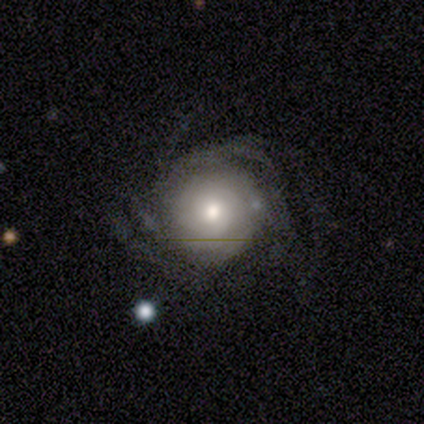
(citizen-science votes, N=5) Overall: featured or disk (60%; smooth 40%). Edge-on disk: no (100%). Bar: no (100%). Spiral arms: yes (100%). Spiral arm count: can't tell (67%; 3 33%). Spiral winding: loose (67%; medium 33%). Bulge size: moderate (100%). Merging: none (80%).